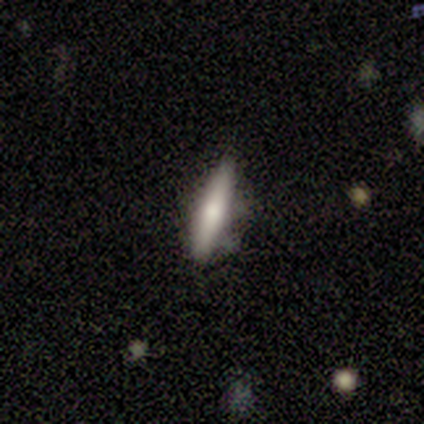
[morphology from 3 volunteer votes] Smooth or featured: smooth — 33% (tied with featured or disk — 33%; star or artifact — 33%)
How rounded: cigar-shaped — 100%
Merging: none — 100%